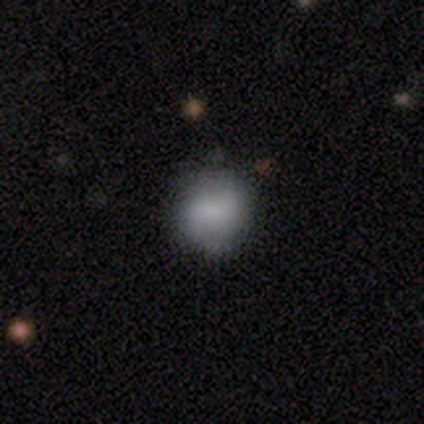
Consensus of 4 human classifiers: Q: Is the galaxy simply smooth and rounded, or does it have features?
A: smooth — 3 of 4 (75%).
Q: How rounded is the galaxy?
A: round — 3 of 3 (100%).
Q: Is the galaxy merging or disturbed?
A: none — 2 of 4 (50%).